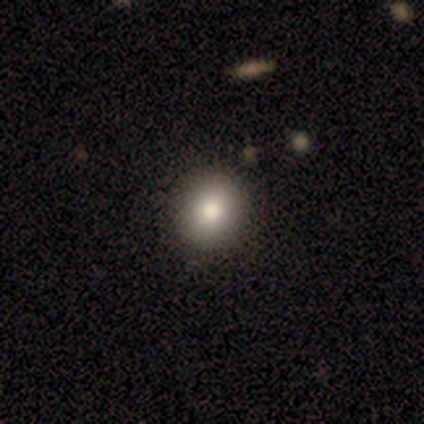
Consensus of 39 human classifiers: smooth 87%, star or artifact 8%, featured or disk 5%. Down the decision tree: how rounded — round (79%); merging — none (61%).